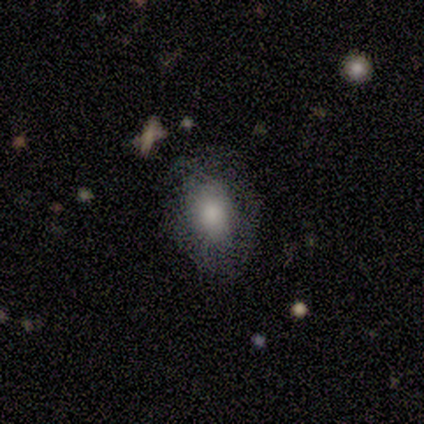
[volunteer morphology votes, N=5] Smooth or featured: smooth — 80% (featured or disk — 20%)
How rounded: round — 50% (tied with in between — 50%)
Merging: none — 100%